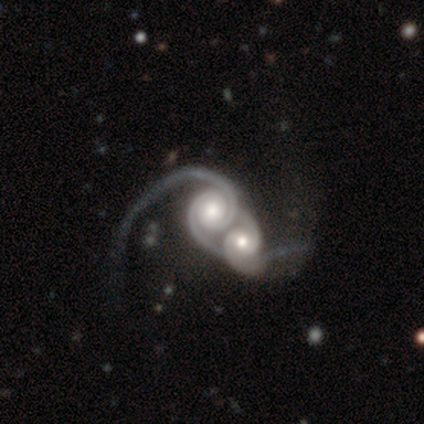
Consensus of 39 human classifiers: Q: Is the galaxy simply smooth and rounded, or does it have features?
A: featured or disk — 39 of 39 (100%).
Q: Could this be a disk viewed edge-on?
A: no — 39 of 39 (100%).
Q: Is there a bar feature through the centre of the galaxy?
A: no — 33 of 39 (85%).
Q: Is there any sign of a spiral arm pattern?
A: yes — 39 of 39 (100%).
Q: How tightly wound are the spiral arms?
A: tight — 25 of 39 (64%).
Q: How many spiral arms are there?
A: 2 — 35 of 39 (90%).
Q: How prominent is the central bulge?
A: moderate — 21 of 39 (54%).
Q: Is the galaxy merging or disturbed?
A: merger — 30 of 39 (77%).